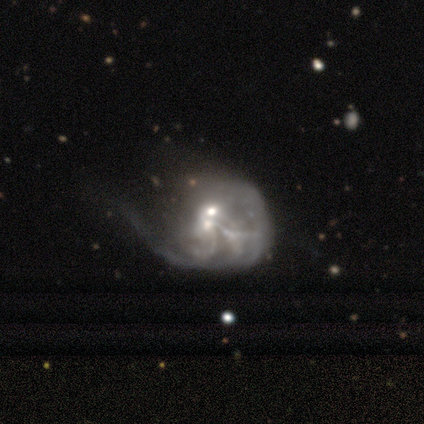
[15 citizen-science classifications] Q: Smooth or featured?
A: featured or disk (93%); runner-up: star or artifact (7%)
Q: Edge-on disk?
A: no (100%)
Q: Bar?
A: no (64%); runner-up: weak (21%)
Q: Spiral arms?
A: yes (64%); runner-up: no (36%)
Q: Spiral winding?
A: medium (44%); runner-up: tight (33%)
Q: Spiral arm count?
A: can't tell (44%); runner-up: 2 (33%)
Q: Bulge size?
A: moderate (43%); runner-up: small (36%)
Q: Merging?
A: merger (50%); runner-up: major disturbance (36%)